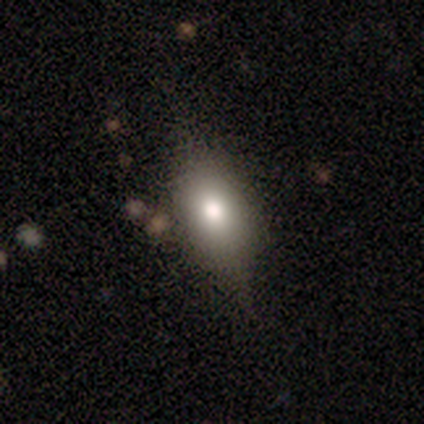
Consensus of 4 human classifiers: Volunteers were most divided on "smooth or featured" (2-way tie): smooth: 50%, featured or disk: 50%, star or artifact: 0%. More confident: how rounded — in between (100%); merging — none (75%).